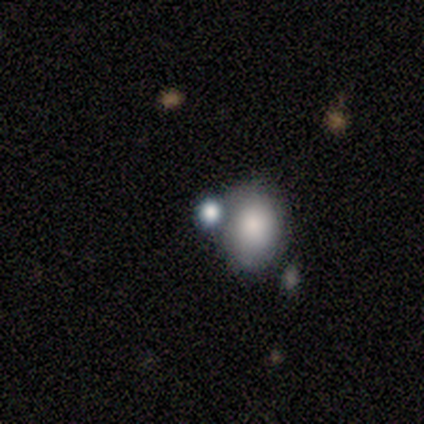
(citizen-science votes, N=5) Morphology: type=smooth (80%); roundness=round (50%, tied with in between); merging=merger (75%).